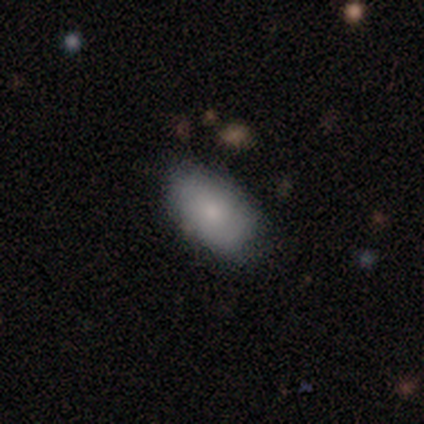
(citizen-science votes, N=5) Smooth or featured: smooth — 100%
How rounded: in between — 80% (round — 20%)
Merging: none — 100%